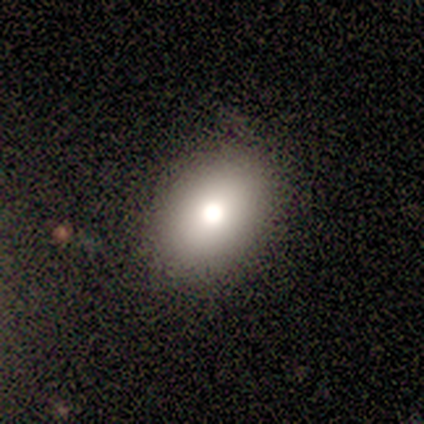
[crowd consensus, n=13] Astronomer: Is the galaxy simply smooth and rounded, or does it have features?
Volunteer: smooth — 85%.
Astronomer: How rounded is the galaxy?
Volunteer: in between — 73%.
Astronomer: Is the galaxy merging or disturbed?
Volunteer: none — 92%.